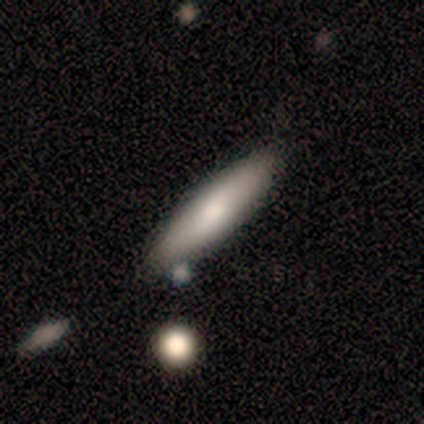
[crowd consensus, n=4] Smooth or featured? smooth (75%)
How rounded? cigar-shaped (67%)
Merging? none (67%)